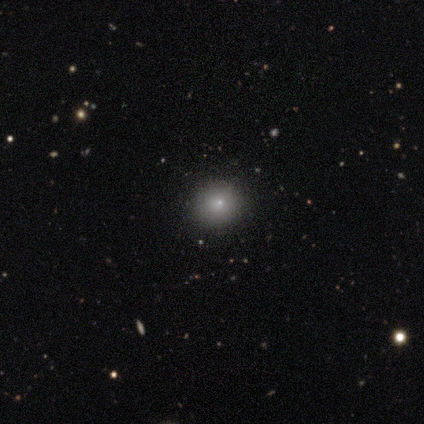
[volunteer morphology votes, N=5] Smooth or featured? 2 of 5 (40%, tied with star or artifact) said smooth. How rounded? 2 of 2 (100%) said round. Merging? 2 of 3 (67%) said none.